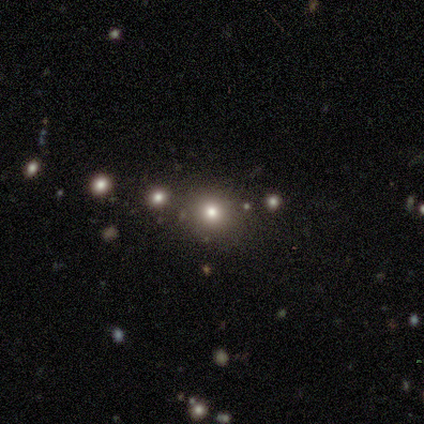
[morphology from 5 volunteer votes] Overall: smooth (60%; star or artifact 40%). How rounded: round (100%). Merging: none (100%).